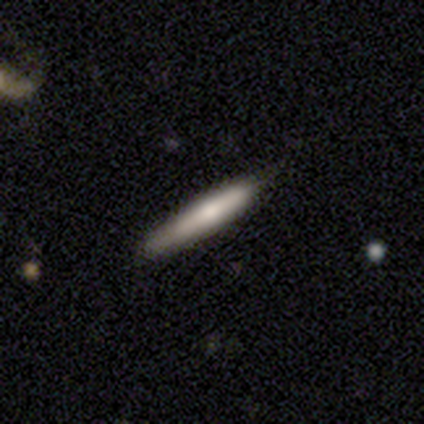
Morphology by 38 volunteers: Smooth or featured? smooth (63%)
How rounded? cigar-shaped (100%)
Merging? none (92%)